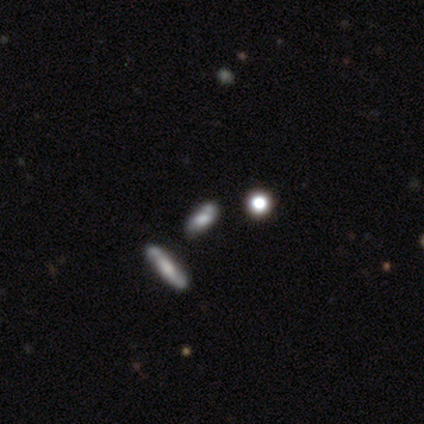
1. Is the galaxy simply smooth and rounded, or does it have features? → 60% featured or disk, 20% smooth, 20% star or artifact.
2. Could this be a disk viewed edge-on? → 67% no, 33% yes.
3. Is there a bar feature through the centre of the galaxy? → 50% weak (tied), 50% no (tied), 0% strong.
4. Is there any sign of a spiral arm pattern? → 50% yes (tied), 50% no (tied).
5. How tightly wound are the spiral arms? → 100% loose, 0% tight, 0% medium.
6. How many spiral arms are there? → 100% can't tell, 0% 1, 0% 2, 0% 3, 0% 4, 0% more than 4.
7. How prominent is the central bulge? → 50% moderate (tied), 50% small (tied), 0% dominant, 0% large, 0% none.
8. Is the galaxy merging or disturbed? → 50% minor disturbance, 25% none, 25% merger, 0% major disturbance.